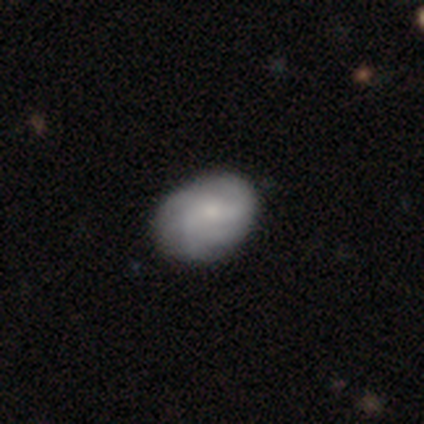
This appears to be a smooth galaxy with no disk features (60%) that is in between round and cigar-shaped (67%). Merging: none (80%).